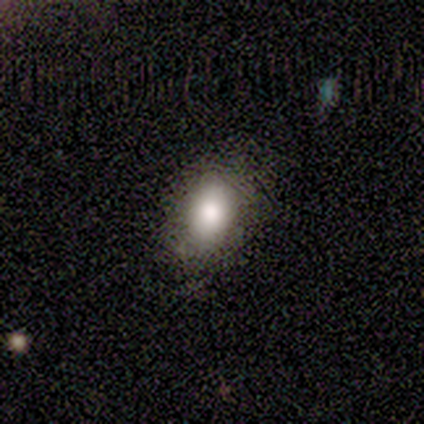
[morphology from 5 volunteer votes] smooth_or_featured: smooth (p=0.80) [alt: star or artifact p=0.20]
how_rounded: in between (p=1.00)
merging: none (p=1.00)